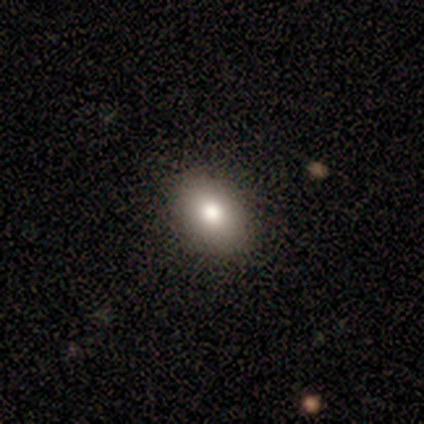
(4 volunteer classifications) smooth_or_featured: smooth (p=0.50) [tied with: featured or disk p=0.50]
how_rounded: round (p=0.50) [tied with: in between p=0.50]
merging: none (p=1.00)